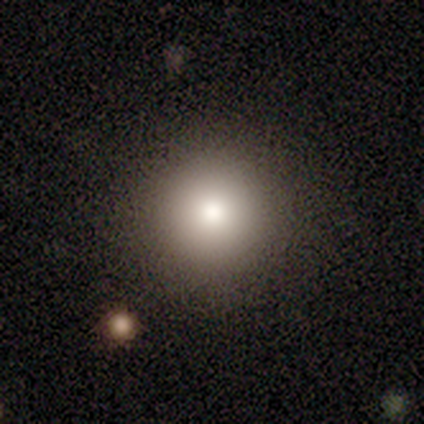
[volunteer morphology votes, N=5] A smooth galaxy with no disk features (60%) that is round (100%).

Vote fractions:
- Smooth or featured? smooth: 60% / star or artifact: 40% / featured or disk: 0%
- How rounded? round: 100% / in between: 0% / cigar-shaped: 0%
- Merging? none: 100% / minor disturbance: 0% / major disturbance: 0% / merger: 0%